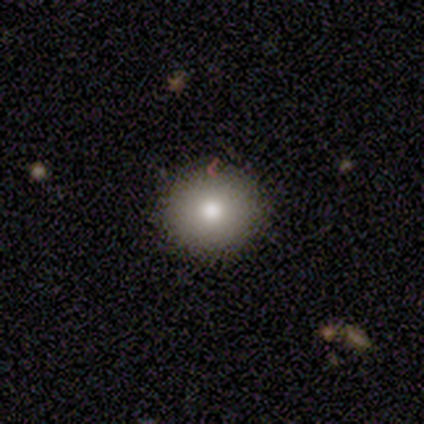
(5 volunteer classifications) This appears to be a smooth galaxy with no disk features (60%) that is round (100%). Merging: none (100%).